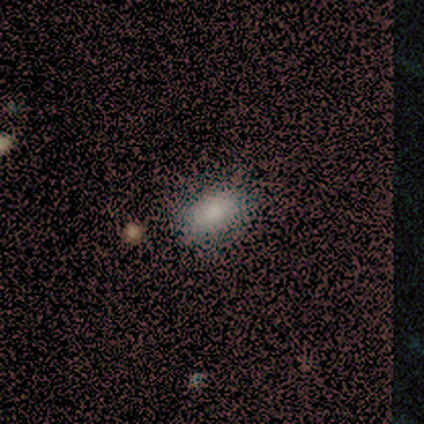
Smooth or featured: smooth — 83% (star or artifact — 10%)
How rounded: in between — 85% (round — 12%)
Merging: none — 59% (major disturbance — 8%)